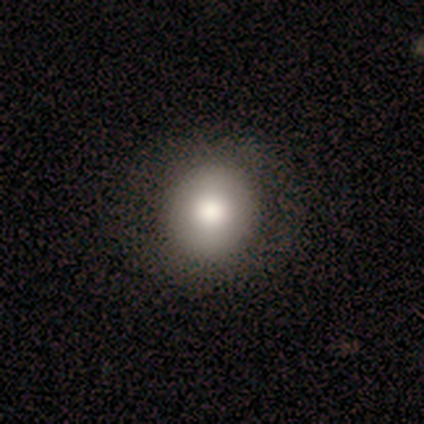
Smooth or featured? 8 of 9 (89%) said smooth. How rounded? 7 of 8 (88%) said round. Merging? 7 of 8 (88%) said none.